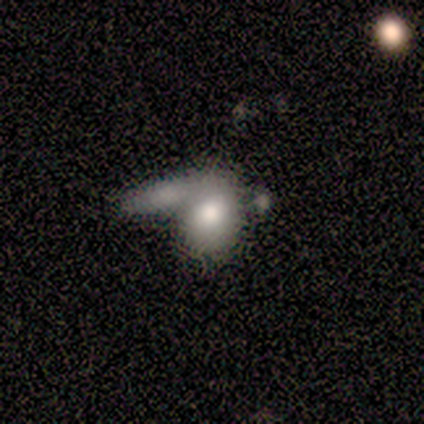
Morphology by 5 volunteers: Volunteers were most divided on "merging" (2-way tie): major disturbance: 40%, merger: 40%, none: 20%, minor disturbance: 0%. More confident: bar — no (100%); spiral arms — no (100%); bulge size — large (100%); edge-on disk — no (67%); smooth or featured — featured or disk (60%).